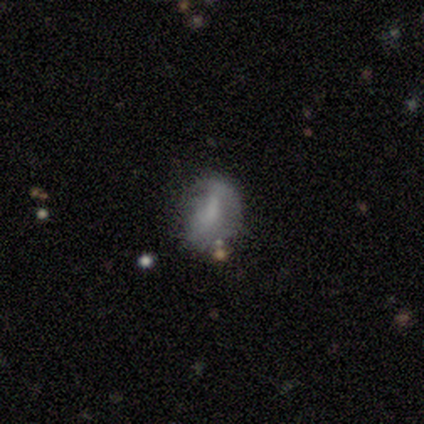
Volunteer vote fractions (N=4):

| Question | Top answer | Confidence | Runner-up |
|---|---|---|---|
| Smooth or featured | featured or disk | 50% | smooth (25%) |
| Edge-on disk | no | 100% | — |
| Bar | weak | 50% | tied: no (50%) |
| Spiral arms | no | 100% | — |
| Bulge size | none | 100% | — |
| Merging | minor disturbance | 67% | none (33%) |